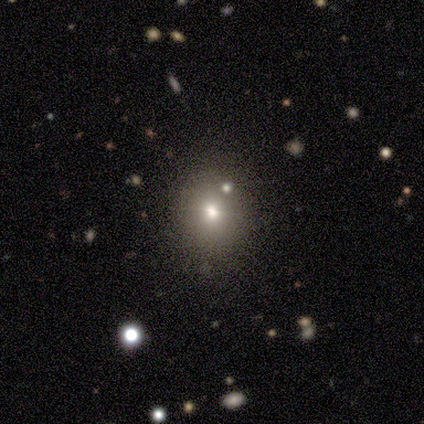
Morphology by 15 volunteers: smooth 67%, star or artifact 20%, featured or disk 13%. Down the decision tree: how rounded — round (90%); merging — none (83%).